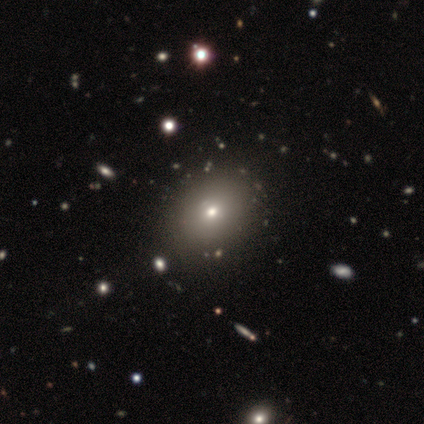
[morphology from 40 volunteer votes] A smooth galaxy with no disk features (75%) that is in between round and cigar-shaped (60%).

Vote fractions:
- Smooth or featured? smooth: 75% / star or artifact: 15% / featured or disk: 10%
- How rounded? in between: 60% / round: 40% / cigar-shaped: 0%
- Merging? none: 88% / minor disturbance: 0% / major disturbance: 0% / merger: 0%